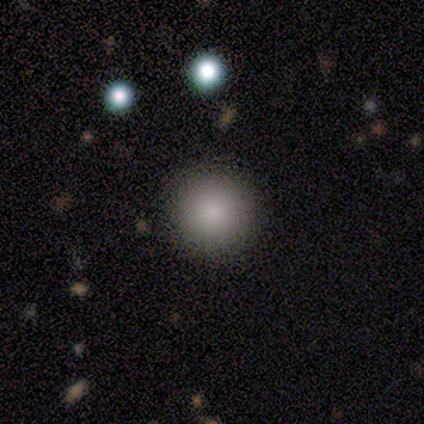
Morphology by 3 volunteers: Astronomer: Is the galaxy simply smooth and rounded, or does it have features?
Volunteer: smooth — 67%.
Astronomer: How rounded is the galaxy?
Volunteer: round — 100%.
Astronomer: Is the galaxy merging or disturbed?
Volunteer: none — 100%.